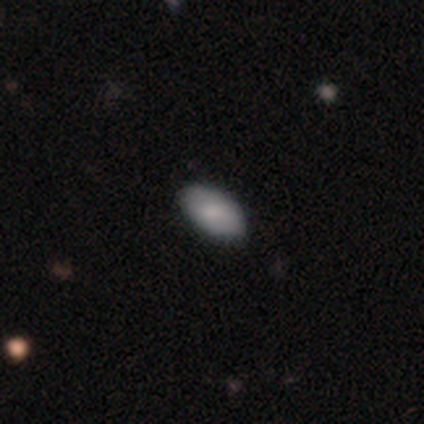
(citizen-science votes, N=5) This is clearly a smooth galaxy (80%). How rounded: clearly in between (100%). Merging: possibly none (50%).